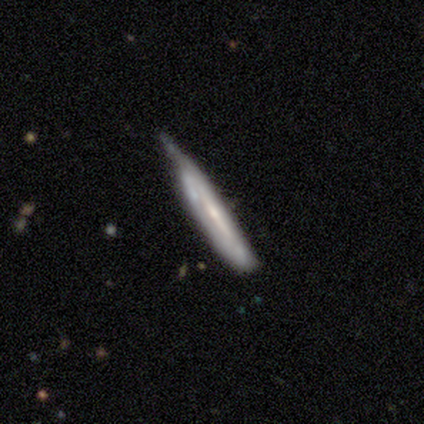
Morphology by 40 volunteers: A featured or disk galaxy (72%) viewed edge-on (76%) with no central bulge (59%). Merging: minor disturbance (47%).